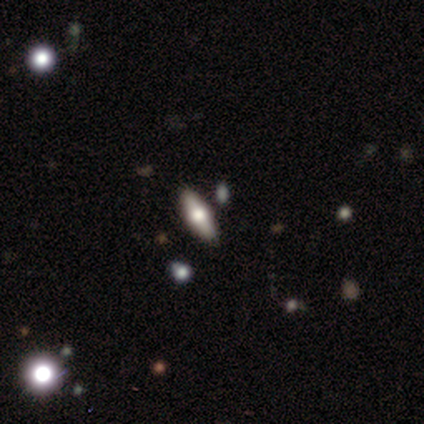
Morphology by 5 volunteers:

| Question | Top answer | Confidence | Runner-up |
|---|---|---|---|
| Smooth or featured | smooth | 60% | featured or disk (40%) |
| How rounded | in between | 67% | cigar-shaped (33%) |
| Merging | none | 60% | minor disturbance (20%) |